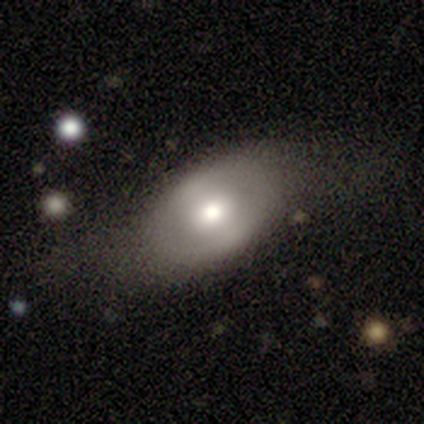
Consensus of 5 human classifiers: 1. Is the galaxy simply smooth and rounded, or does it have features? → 80% smooth, 20% featured or disk, 0% star or artifact.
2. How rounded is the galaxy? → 100% in between, 0% round, 0% cigar-shaped.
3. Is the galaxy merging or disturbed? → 60% none, 20% minor disturbance, 20% major disturbance, 0% merger.